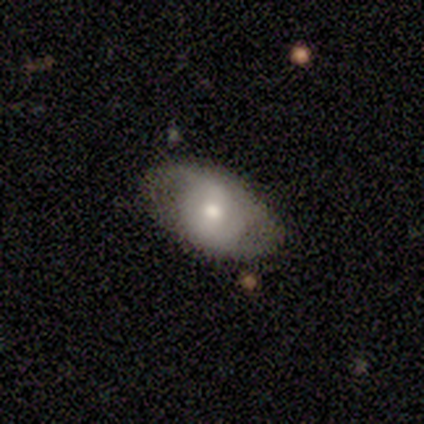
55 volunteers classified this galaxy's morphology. smooth_or_featured: featured or disk (p=0.58) [alt: smooth p=0.40]
disk_edge_on: no (p=0.97) [alt: yes p=0.03]
bar: no (p=0.48) [alt: weak p=0.45]
has_spiral_arms: yes (p=0.52) [alt: no p=0.48]
spiral_winding: loose (p=0.44) [alt: tight p=0.31]
spiral_arm_count: 2 (p=0.56) [alt: can't tell p=0.25]
bulge_size: moderate (p=0.61) [alt: small p=0.26]
merging: none (p=0.74) [alt: minor disturbance p=0.20]